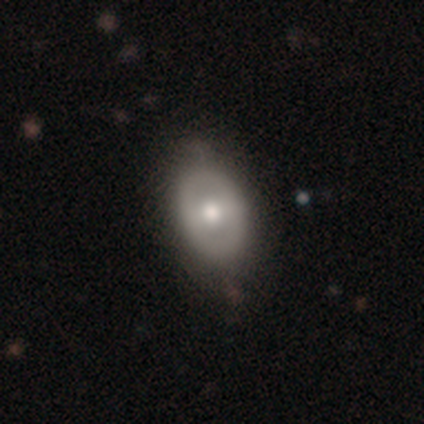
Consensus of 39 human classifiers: A featured or disk galaxy (51%) with no bar (55%), no spiral arms (90%) and a moderate central bulge (75%). Merging: none (47%).